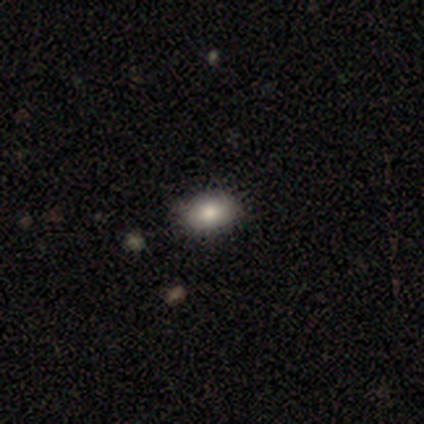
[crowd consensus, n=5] smooth 100%, featured or disk 0%, star or artifact 0%. Down the decision tree: how rounded — in between (100%); merging — none (80%).